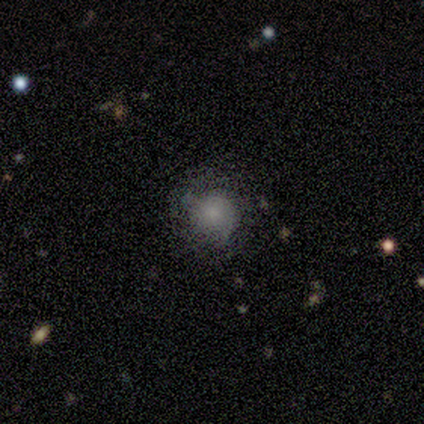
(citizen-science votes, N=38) This appears to be a smooth galaxy with no disk features (74%) that is round (89%). Merging: none (79%).